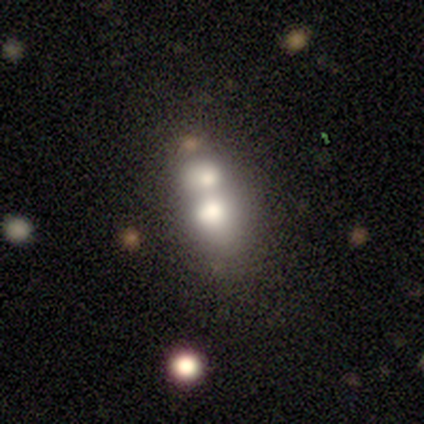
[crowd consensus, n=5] This is marginally a featured or disk galaxy (40%, tied with star or artifact). It is clearly not viewed edge-on (100%). Bar: clearly no (100%). Spiral arm pattern: clearly no (100%). Central bulge: clearly moderate (100%). Merging: clearly merger (100%).